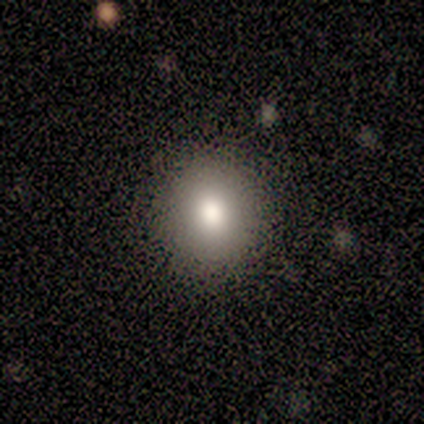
A smooth galaxy with no disk features (67%) that is round (100%).

Vote fractions:
- Smooth or featured? smooth: 67% / featured or disk: 17% / star or artifact: 17%
- How rounded? round: 100% / in between: 0% / cigar-shaped: 0%
- Merging? none: 100% / minor disturbance: 0% / major disturbance: 0% / merger: 0%